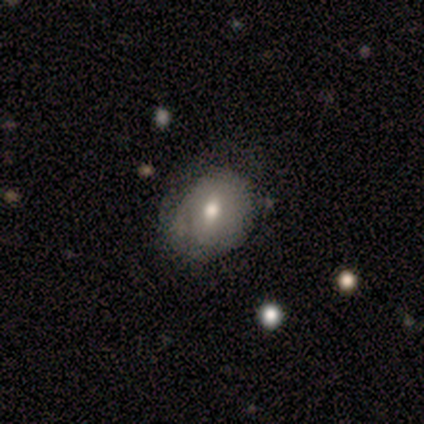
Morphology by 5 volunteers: Volunteers were most divided on "merging": none: 60%, minor disturbance: 20%, major disturbance: 20%, merger: 0%. More confident: smooth or featured — smooth (80%); how rounded — in between (75%).